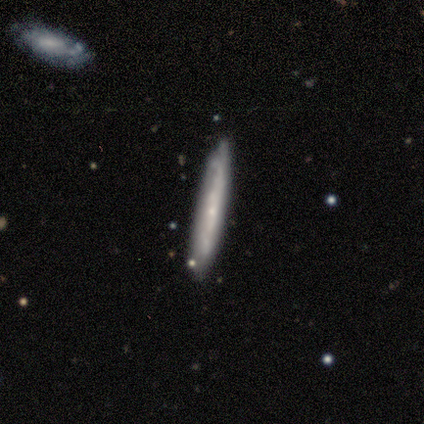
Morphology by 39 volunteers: Overall: featured or disk (54%; smooth 46%). Edge-on disk: yes (76%). Edge-on bulge: none (62%; rounded 38%). Merging: none (79%).